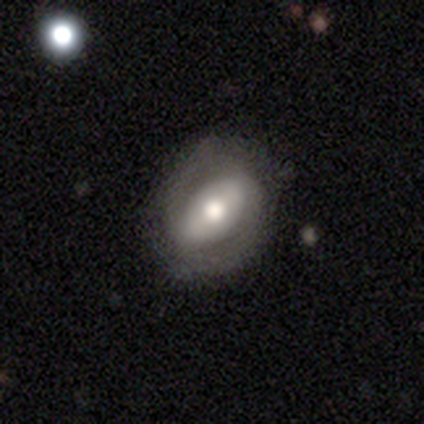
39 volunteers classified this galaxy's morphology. smooth_or_featured: featured or disk (p=0.62) [alt: smooth p=0.33]
disk_edge_on: no (p=0.88) [alt: yes p=0.12]
bar: strong (p=0.43) [alt: no p=0.33]
has_spiral_arms: yes (p=0.76) [alt: no p=0.24]
spiral_winding: medium (p=0.56) [alt: tight p=0.31]
spiral_arm_count: 2 (p=0.75) [alt: can't tell p=0.19]
bulge_size: moderate (p=0.71) [alt: large p=0.24]
merging: none (p=0.65) [alt: minor disturbance p=0.19]